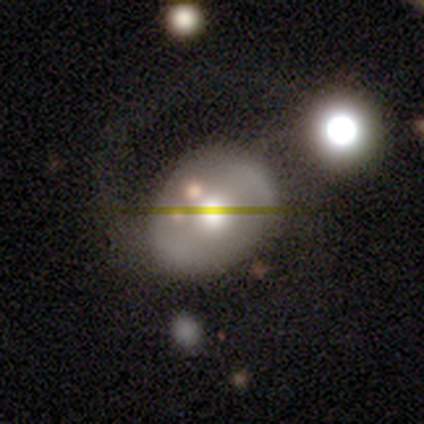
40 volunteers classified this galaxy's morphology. Q: Smooth or featured?
A: featured or disk (52%); runner-up: smooth (42%)
Q: Edge-on disk?
A: no (100%)
Q: Bar?
A: no (67%); runner-up: strong (19%)
Q: Spiral arms?
A: no (52%); runner-up: yes (48%)
Q: Bulge size?
A: moderate (57%); runner-up: large (24%)
Q: Merging?
A: none (32%); runner-up: major disturbance (18%)